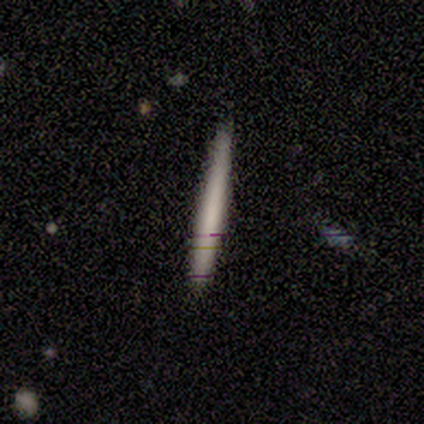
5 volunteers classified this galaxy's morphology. Smooth or featured? 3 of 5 (60%) said smooth. How rounded? 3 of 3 (100%) said cigar-shaped. Merging? 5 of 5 (100%) said none.